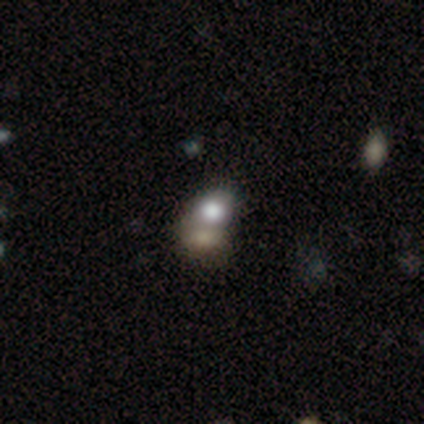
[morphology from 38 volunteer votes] smooth-or-featured: smooth: 55% | featured or disk: 32% | star or artifact: 13%
  how-rounded: round: 62% | in between: 38% | cigar-shaped: 0%
  merging: merger: 64% | none: 24% | minor disturbance: 3% | major disturbance: 0%